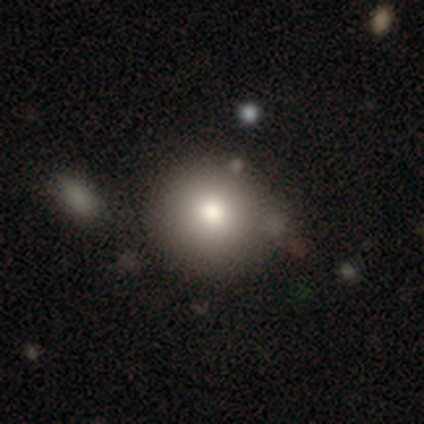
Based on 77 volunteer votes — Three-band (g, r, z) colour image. It shows a smooth galaxy with no disk features (87%) that is round (94%). Merging: none (42%).